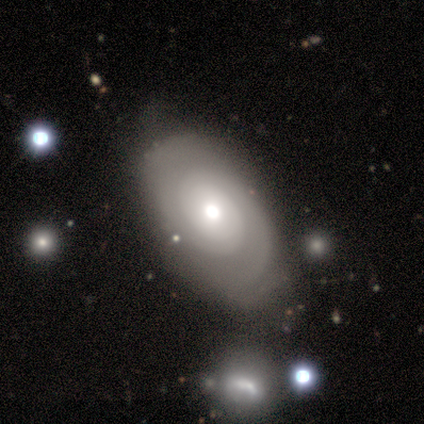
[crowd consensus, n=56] smooth-or-featured: featured or disk: 71% | smooth: 20% | star or artifact: 9%
  disk-edge-on: no: 100% | yes: 0%
    bar: no: 88% | weak: 12% | strong: 0%
    has-spiral-arms: yes: 78% | no: 22%
      spiral-winding: tight: 55% | medium: 39% | loose: 6%
      spiral-arm-count: 2: 55% | can't tell: 39% | 1: 3% | 4: 3% | 3: 0% | more than 4: 0%
    bulge-size: moderate: 57% | large: 25% | small: 10% | dominant: 8% | none: 0%
  merging: none: 45% | minor disturbance: 31% | major disturbance: 12% | merger: 12%